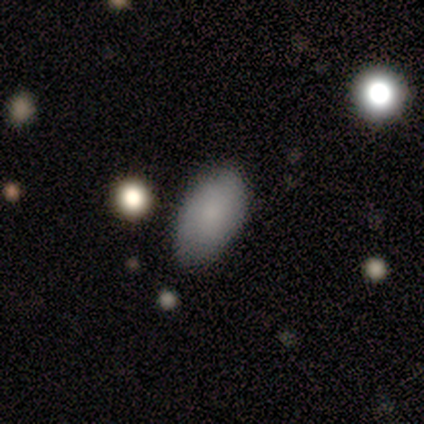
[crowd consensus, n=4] smooth_or_featured: smooth (p=1.00)
how_rounded: in between (p=1.00)
merging: none (p=1.00)